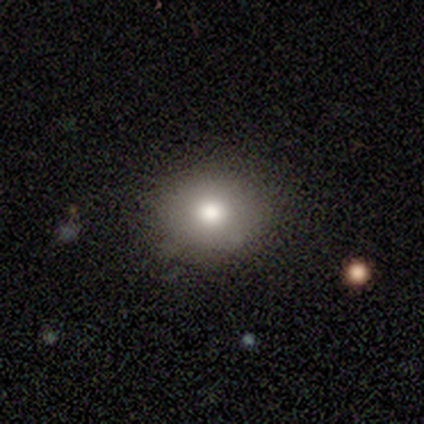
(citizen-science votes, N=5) Overall: smooth (80%). How rounded: round (50%, tied with in between). Merging: none (100%).